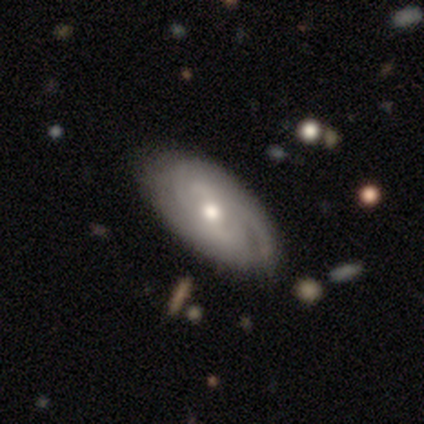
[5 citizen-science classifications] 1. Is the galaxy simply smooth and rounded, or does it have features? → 100% featured or disk, 0% smooth, 0% star or artifact.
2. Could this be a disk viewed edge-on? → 100% no, 0% yes.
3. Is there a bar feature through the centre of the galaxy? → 60% no, 20% strong, 20% weak.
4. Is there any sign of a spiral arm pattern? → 80% yes, 20% no.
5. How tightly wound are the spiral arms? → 100% tight, 0% medium, 0% loose.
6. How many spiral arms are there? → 75% can't tell, 25% 3, 0% 1, 0% 2, 0% 4, 0% more than 4.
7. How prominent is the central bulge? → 100% moderate, 0% dominant, 0% large, 0% small, 0% none.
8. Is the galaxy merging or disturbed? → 100% none, 0% minor disturbance, 0% major disturbance, 0% merger.